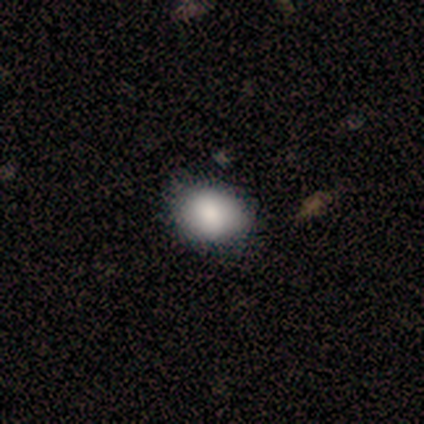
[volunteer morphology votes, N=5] A smooth galaxy with no disk features (80%) that is in between round and cigar-shaped (100%).

Vote fractions:
- Smooth or featured? smooth: 80% / star or artifact: 20% / featured or disk: 0%
- How rounded? in between: 100% / round: 0% / cigar-shaped: 0%
- Merging? none: 100% / minor disturbance: 0% / major disturbance: 0% / merger: 0%